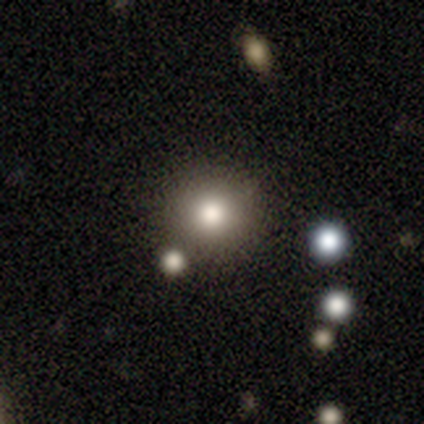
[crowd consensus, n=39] smooth-or-featured: smooth: 77% | star or artifact: 15% | featured or disk: 8%
  how-rounded: round: 97% | cigar-shaped: 3% | in between: 0%
  merging: none: 85% | merger: 12% | minor disturbance: 3% | major disturbance: 0%